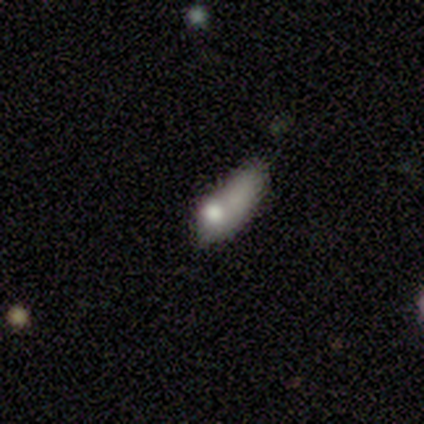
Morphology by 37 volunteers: smooth_or_featured: smooth (p=0.62) [alt: featured or disk p=0.32]
how_rounded: in between (p=0.61) [alt: cigar-shaped p=0.35]
merging: minor disturbance (p=0.40) [alt: major disturbance p=0.29]